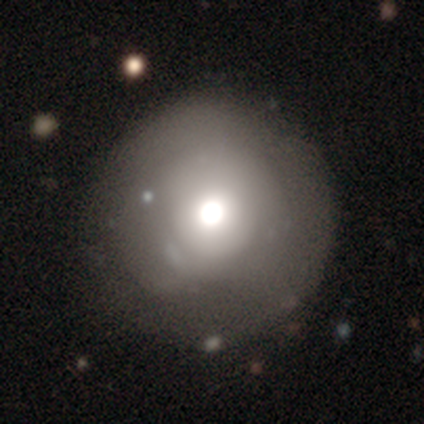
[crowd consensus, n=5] smooth-or-featured: smooth: 80% | star or artifact: 20% | featured or disk: 0%
  how-rounded: round: 100% | in between: 0% | cigar-shaped: 0%
  merging: none: 100% | minor disturbance: 0% | major disturbance: 0% | merger: 0%